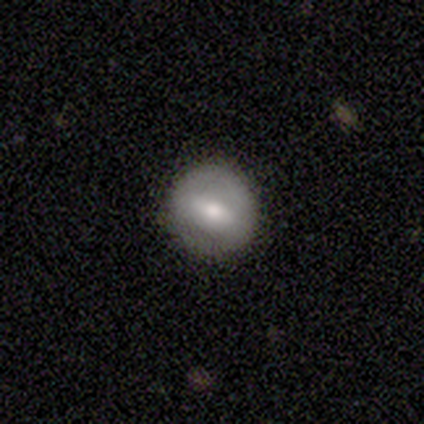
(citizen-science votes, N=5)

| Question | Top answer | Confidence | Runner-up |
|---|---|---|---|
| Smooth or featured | featured or disk | 60% | smooth (20%) |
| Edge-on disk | no | 67% | yes (33%) |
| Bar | strong | 100% | — |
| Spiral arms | no | 100% | — |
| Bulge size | moderate | 50% | tied: small (50%) |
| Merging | none | 100% | — |